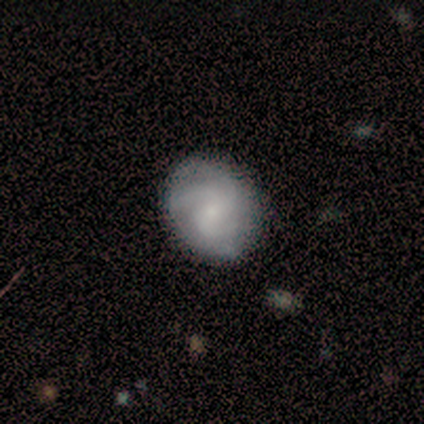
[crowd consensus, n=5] Morphology: type=featured or disk (60%); edge-on=no (100%); bar=weak (67%); spiral arms=yes (100%); winding=medium (100%); arm count=2 (33%, tied with 3 and can't tell); bulge=small (100%); merging=none (100%).